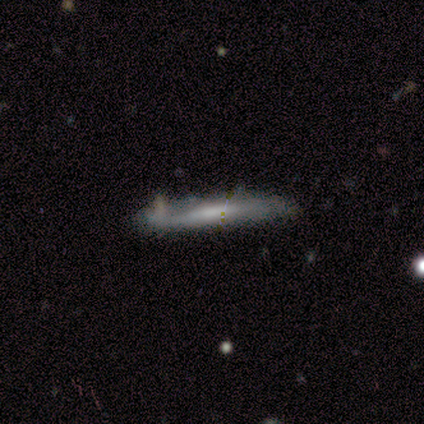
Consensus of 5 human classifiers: A featured or disk galaxy (60%) viewed edge-on (100%) with no central bulge (100%).

Vote fractions:
- Smooth or featured? featured or disk: 60% / smooth: 40% / star or artifact: 0%
- Edge-on disk? yes: 100% / no: 0%
- Edge-on bulge? none: 100% / boxy: 0% / rounded: 0%
- Merging? none: 80% / minor disturbance: 20% / major disturbance: 0% / merger: 0%